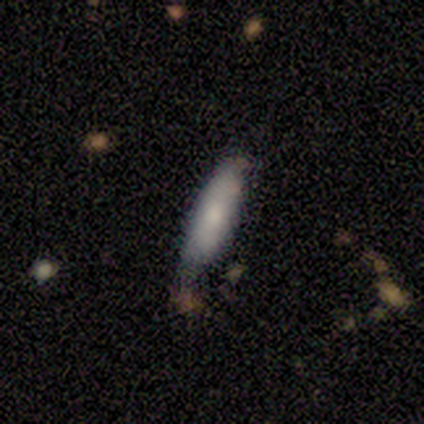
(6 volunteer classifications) Smooth or featured: smooth — 67% (featured or disk — 33%)
How rounded: in between — 75% (cigar-shaped — 25%)
Merging: minor disturbance — 67% (none — 33%)